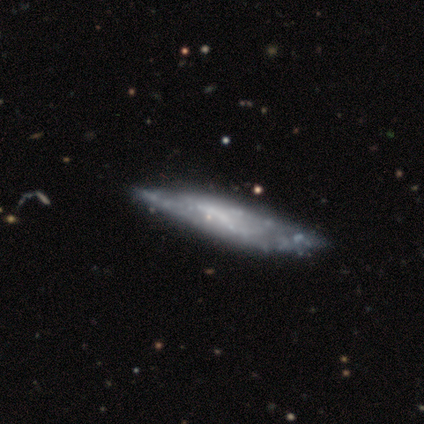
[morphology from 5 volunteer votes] This appears to be a featured or disk galaxy (80%) viewed edge-on (50%, tied with no) with a boxy central bulge (50%, tied with none). Merging: minor disturbance (60%).